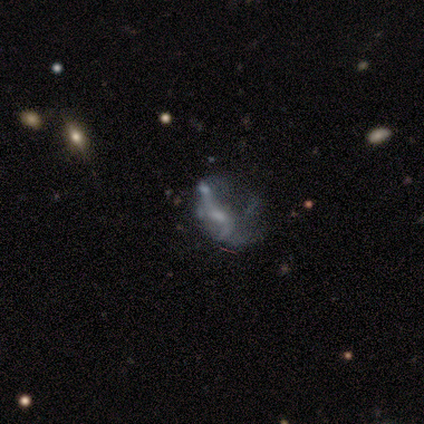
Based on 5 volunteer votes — This appears to be a featured or disk galaxy (40%, tied with star or artifact) with a weak bar (50%, tied with no), tight (100%) spiral arms (50%, tied with no) and a small central bulge (100%). Merging: minor disturbance (67%).